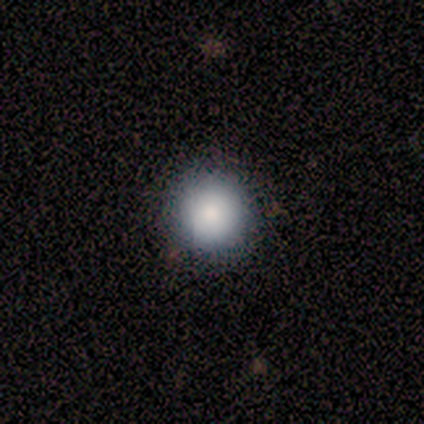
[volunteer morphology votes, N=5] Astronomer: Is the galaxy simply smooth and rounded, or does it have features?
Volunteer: smooth — 60% (runner-up: featured or disk, 40%).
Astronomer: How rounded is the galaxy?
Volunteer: round — 100%.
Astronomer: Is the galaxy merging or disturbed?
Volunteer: none — 100%.